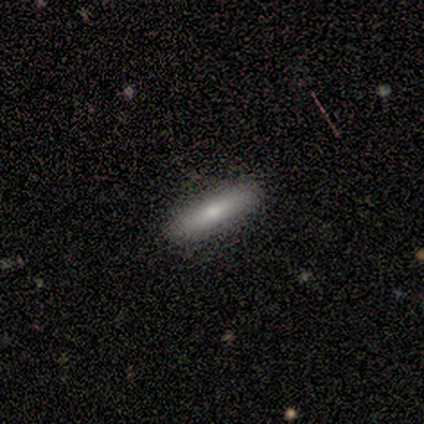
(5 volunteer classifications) Volunteers were most divided on "how rounded": cigar-shaped: 60%, in between: 40%, round: 0%. More confident: smooth or featured — smooth (100%); merging — none (100%).